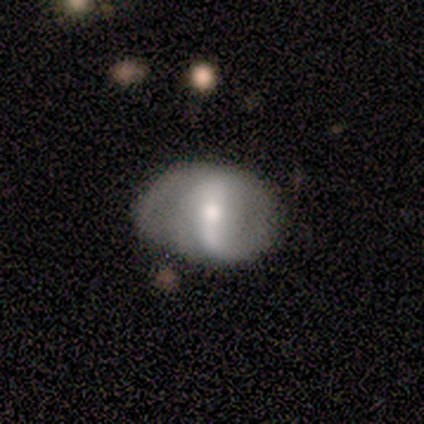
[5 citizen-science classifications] A featured or disk galaxy (100%) with a strong bar (40%, tied with no), 2 (100%) loose (100%) spiral arms (80%) and a small central bulge (60%). Merging: none (40%, tied with minor disturbance).